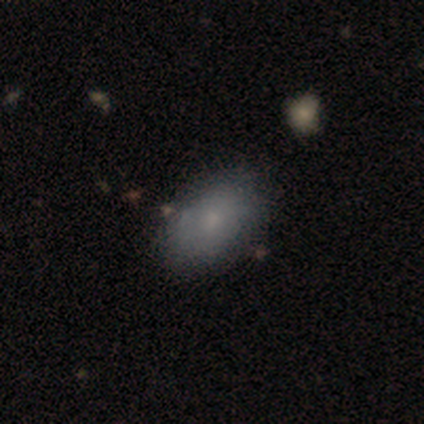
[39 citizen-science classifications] Morphology: type=smooth (74%); roundness=in between (93%); merging=none (79%).